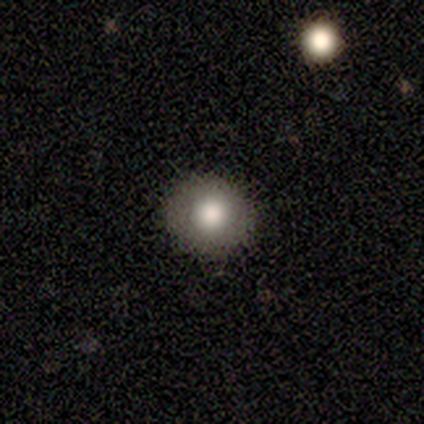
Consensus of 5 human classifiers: Smooth or featured? 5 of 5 (100%) said smooth. How rounded? 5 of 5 (100%) said round. Merging? 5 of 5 (100%) said none.